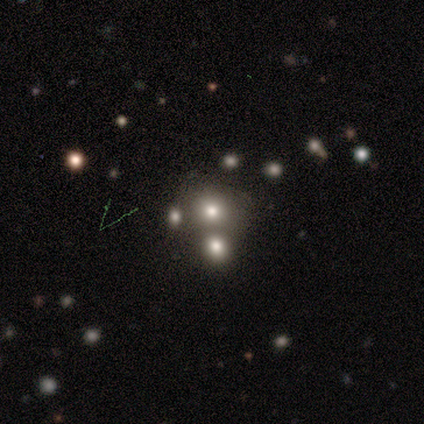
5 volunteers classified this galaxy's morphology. A smooth galaxy with no disk features (60%) that is round (100%). Merging: none (67%).